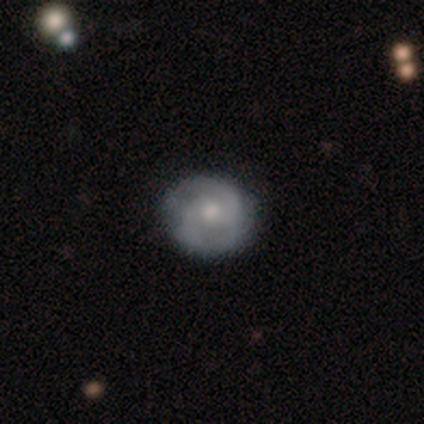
featured or disk 60%, smooth 40%, star or artifact 0%. Down the decision tree: edge-on disk — no (100%); bar — no (100%); spiral arms — yes (67%); spiral arm count — 2 (50%, tied with can't tell); spiral winding — medium (100%); bulge size — moderate (67%); merging — none (80%).